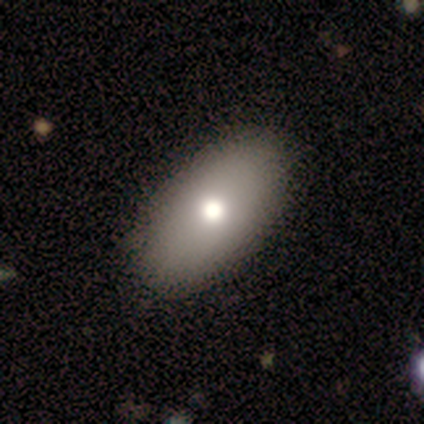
A smooth galaxy with no disk features (80%) that is in between round and cigar-shaped (100%). Merging: none (100%).